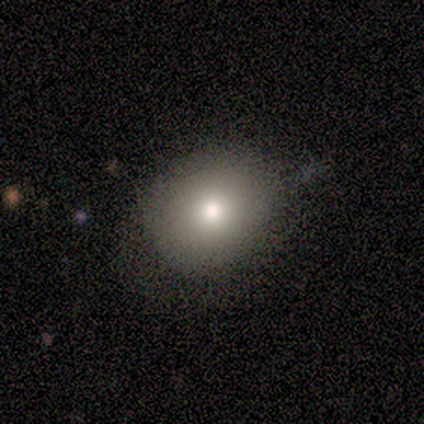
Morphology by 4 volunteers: Volunteers were most divided on "merging" (2-way tie): none: 50%, minor disturbance: 50%, major disturbance: 0%, merger: 0%. More confident: how rounded — round (100%); smooth or featured — smooth (75%).